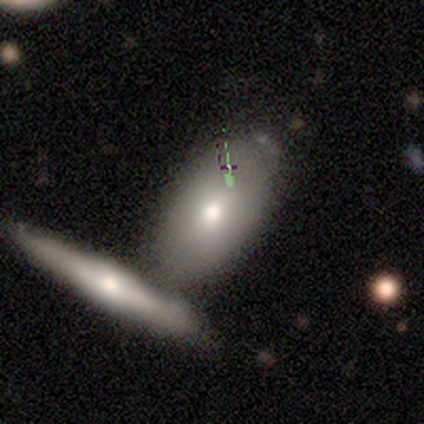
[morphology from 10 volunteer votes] Smooth or featured? smooth (70%)
How rounded? in between (86%)
Merging? merger (40%)